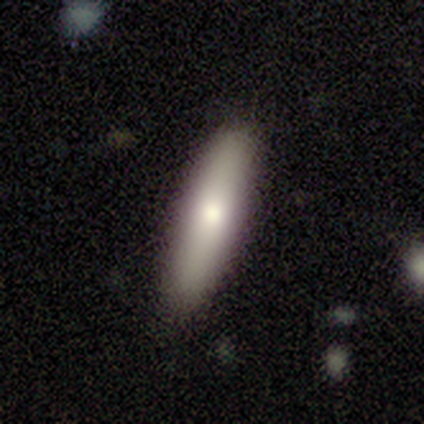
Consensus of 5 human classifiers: Volunteers were most divided on "smooth or featured" (2-way tie): smooth: 40%, featured or disk: 40%, star or artifact: 20%. More confident: how rounded — cigar-shaped (100%); merging — none (75%).